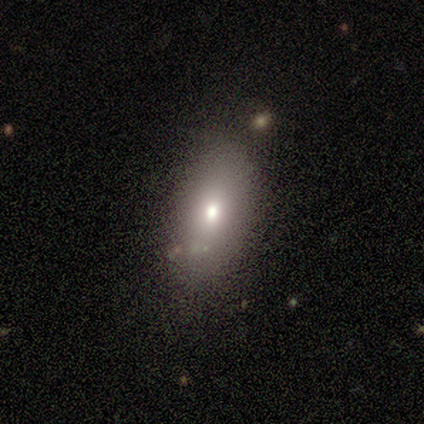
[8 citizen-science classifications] Smooth or featured?
  - smooth: 75% *
  - featured or disk: 12%
  - star or artifact: 12%
How rounded?
  - in between: 67% *
  - round: 33%
  - cigar-shaped: 0%
Merging?
  - none: 71% *
  - major disturbance: 14%
  - merger: 14%
  - minor disturbance: 0%